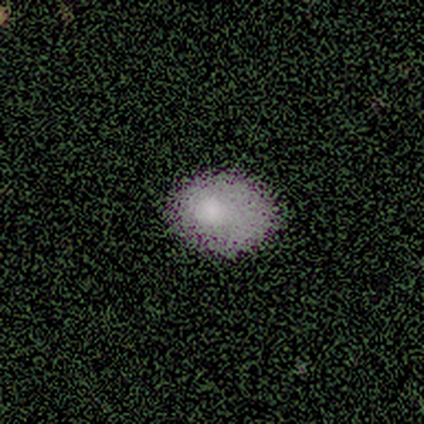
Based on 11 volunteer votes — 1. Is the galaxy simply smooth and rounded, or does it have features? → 55% smooth, 27% star or artifact, 18% featured or disk.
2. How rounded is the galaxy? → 100% in between, 0% round, 0% cigar-shaped.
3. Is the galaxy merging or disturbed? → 75% none, 25% minor disturbance, 0% major disturbance, 0% merger.